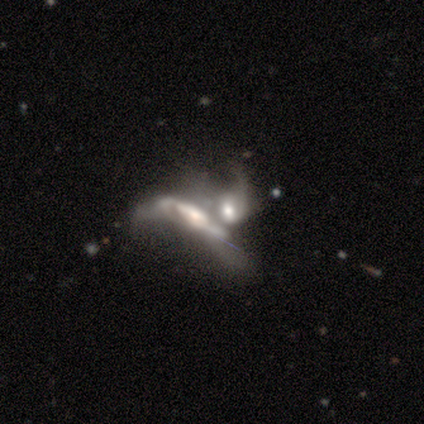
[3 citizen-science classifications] A featured or disk galaxy (100%) with a weak bar (50%, tied with no), 2 (50%, tied with can't tell) medium (50%, tied with loose) spiral arms (100%) and a moderate central bulge (100%). Merging: merger (67%).